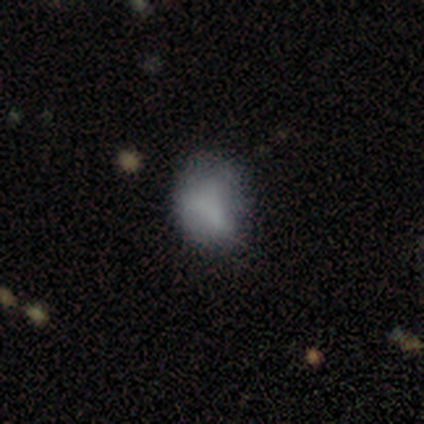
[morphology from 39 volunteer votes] A smooth galaxy with no disk features (77%) that is in between round and cigar-shaped (67%). Merging: minor disturbance (50%).